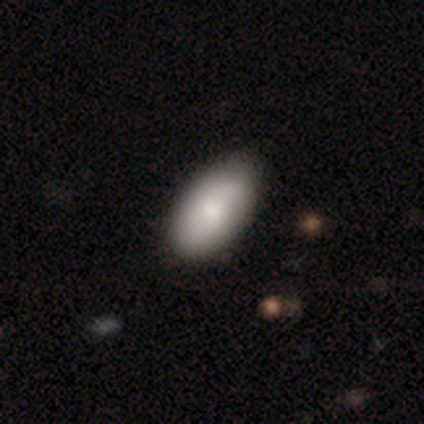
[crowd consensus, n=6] smooth 83%, featured or disk 17%, star or artifact 0%. Down the decision tree: how rounded — in between (100%); merging — none (100%).